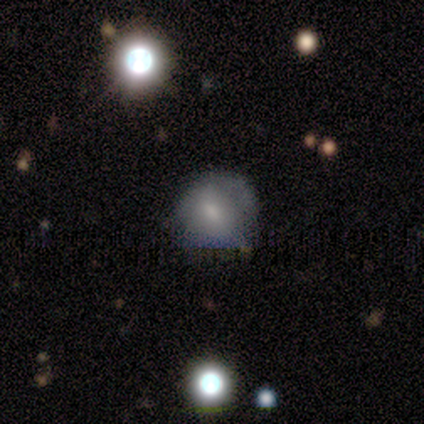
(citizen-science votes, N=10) Q: Smooth or featured?
A: smooth (70%); runner-up: star or artifact (20%)
Q: How rounded?
A: round (86%); runner-up: in between (14%)
Q: Merging?
A: none (50%); runner-up: minor disturbance (38%)